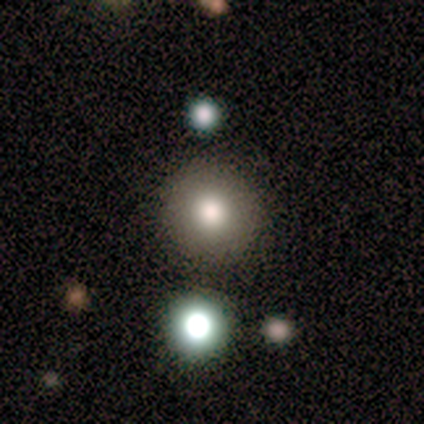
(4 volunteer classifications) This appears to be a smooth galaxy with no disk features (100%) that is round (100%). Merging: none (50%).